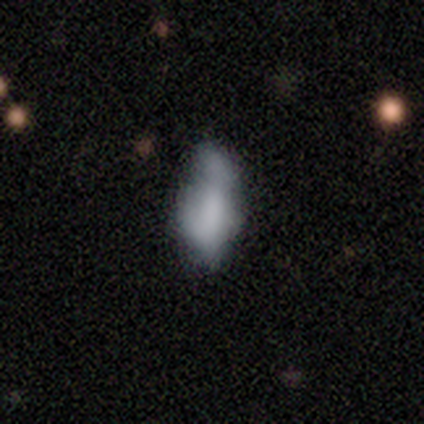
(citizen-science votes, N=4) A smooth galaxy with no disk features (50%, tied with featured or disk) that is in between round and cigar-shaped (50%, tied with cigar-shaped).

Vote fractions:
- Smooth or featured? smooth: 50% (tied) / featured or disk: 50% (tied) / star or artifact: 0%
- How rounded? in between: 50% (tied) / cigar-shaped: 50% (tied) / round: 0%
- Merging? none: 50% / minor disturbance: 25% / major disturbance: 25% / merger: 0%